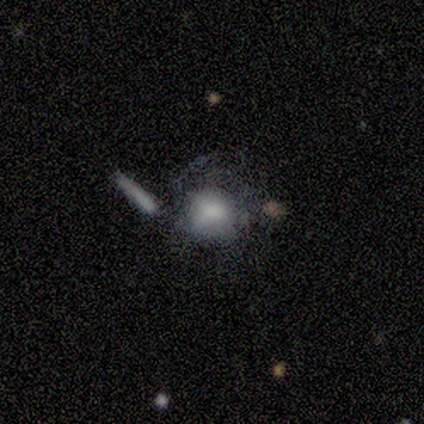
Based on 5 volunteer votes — smooth_or_featured: smooth (p=0.60) [alt: featured or disk p=0.20]
how_rounded: in between (p=0.67) [alt: round p=0.33]
merging: minor disturbance (p=0.50) [alt: major disturbance p=0.25]